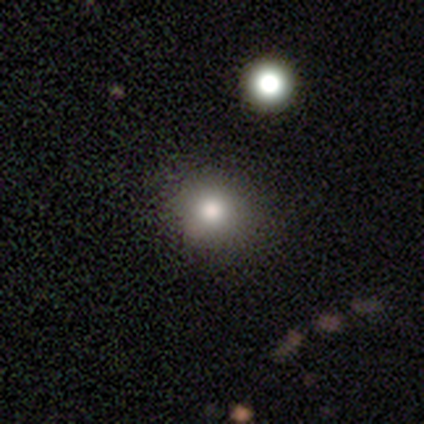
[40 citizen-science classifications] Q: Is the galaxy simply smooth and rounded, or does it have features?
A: smooth — 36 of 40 (90%).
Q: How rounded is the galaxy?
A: round — 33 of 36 (92%).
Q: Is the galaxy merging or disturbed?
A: none — 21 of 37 (57%).